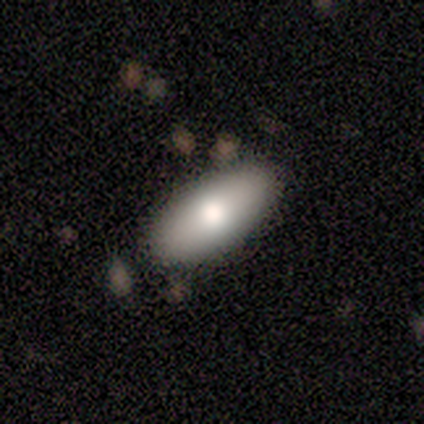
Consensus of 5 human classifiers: smooth_or_featured: smooth (p=0.80) [alt: featured or disk p=0.20]
how_rounded: in between (p=1.00)
merging: none (p=1.00)